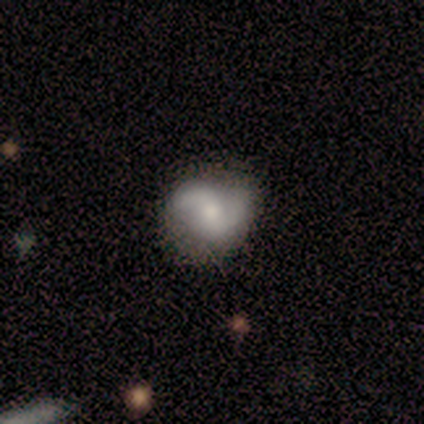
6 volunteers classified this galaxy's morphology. type=smooth (50%); roundness=round (67%); merging=none (100%).